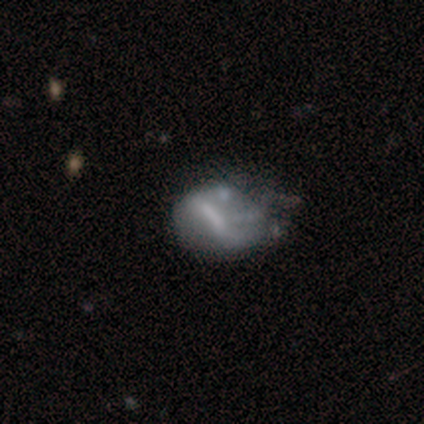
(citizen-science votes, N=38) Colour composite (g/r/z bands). It shows a featured or disk galaxy (58%) with a strong bar (43%), no spiral arms (71%) and no central bulge (57%). Merging: minor disturbance (45%).